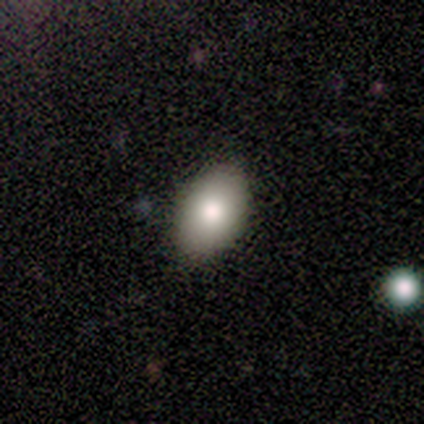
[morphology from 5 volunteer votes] smooth_or_featured: smooth (p=1.00)
how_rounded: in between (p=0.80) [alt: round p=0.20]
merging: none (p=0.80) [alt: major disturbance p=0.20]